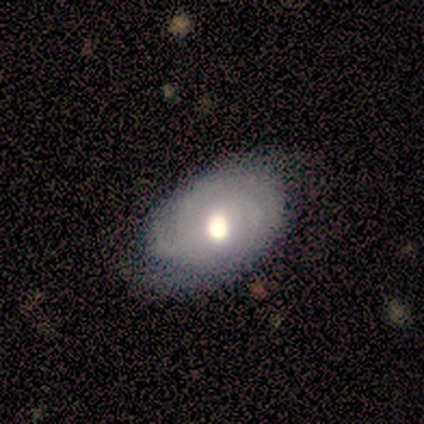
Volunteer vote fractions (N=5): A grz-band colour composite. It shows a smooth galaxy with no disk features (60%) that is in between round and cigar-shaped (100%). Merging: minor disturbance (60%).